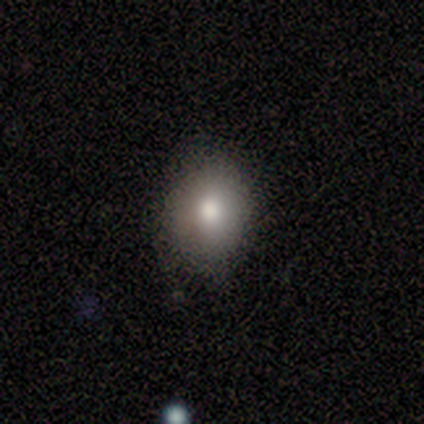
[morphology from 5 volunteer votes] Q: Smooth or featured?
A: smooth (100%)
Q: How rounded?
A: in between (60%); runner-up: round (40%)
Q: Merging?
A: none (80%); runner-up: minor disturbance (20%)